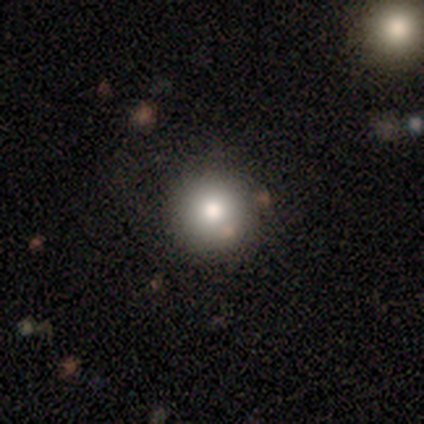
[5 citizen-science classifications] A smooth galaxy with no disk features (80%) that is round (100%).

Vote fractions:
- Smooth or featured? smooth: 80% / star or artifact: 20% / featured or disk: 0%
- How rounded? round: 100% / in between: 0% / cigar-shaped: 0%
- Merging? none: 100% / minor disturbance: 0% / major disturbance: 0% / merger: 0%